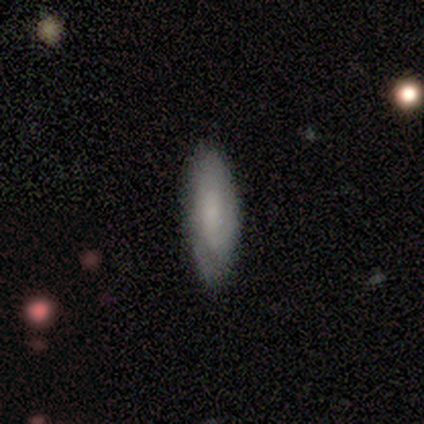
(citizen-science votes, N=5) Morphology: type=featured or disk (60%); edge-on=no (67%); bar=no (100%); spiral arms=yes (100%); winding=tight (50%, tied with loose); arm count=can't tell (100%); bulge=moderate (50%, tied with small); merging=none (80%).